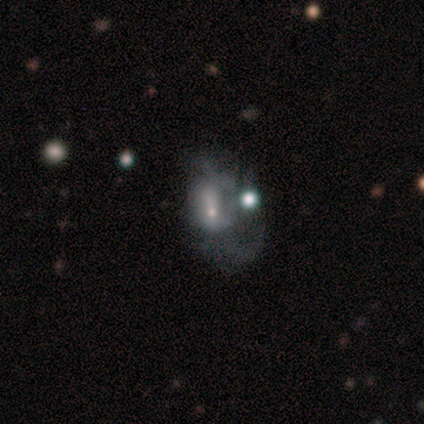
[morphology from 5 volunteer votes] star or artifact 60%, smooth 20%, featured or disk 20%.